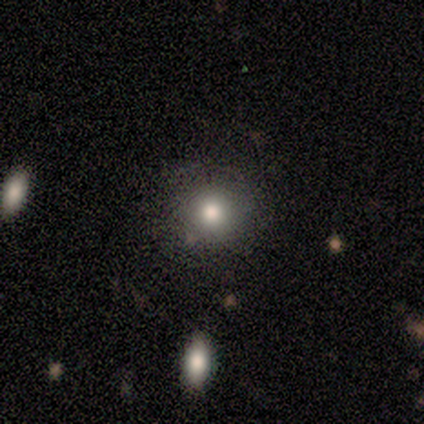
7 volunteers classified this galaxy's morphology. Smooth or featured? 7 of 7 (100%) said smooth. How rounded? 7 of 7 (100%) said round. Merging? 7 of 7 (100%) said none.